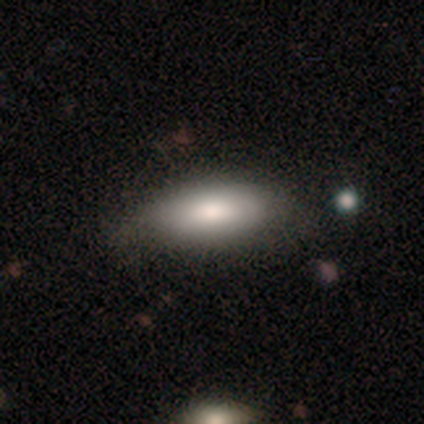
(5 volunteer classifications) Overall: smooth (80%). How rounded: in between (75%). Merging: minor disturbance (50%; none 25%).